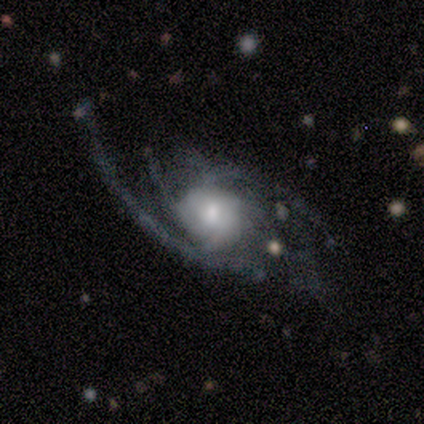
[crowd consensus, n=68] This appears to be a featured or disk galaxy (87%) with no bar (78%), 3 (26%) medium (46%) spiral arms (93%) and a moderate central bulge (57%). Merging: major disturbance (53%).